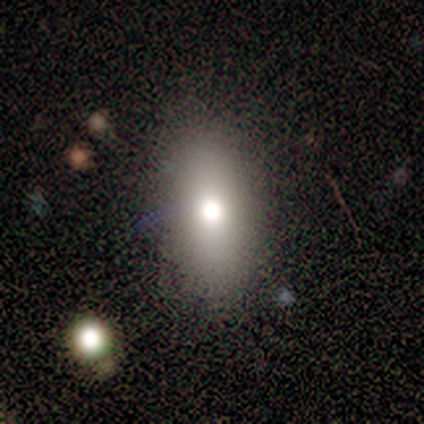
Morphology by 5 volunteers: Smooth or featured?
  - smooth: 60% *
  - featured or disk: 20%
  - star or artifact: 20%
How rounded?
  - in between: 100% *
  - round: 0%
  - cigar-shaped: 0%
Merging?
  - none: 100% *
  - minor disturbance: 0%
  - major disturbance: 0%
  - merger: 0%